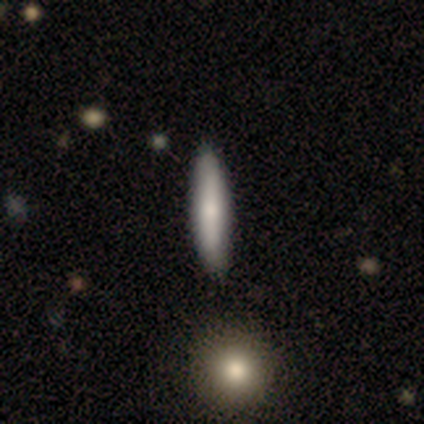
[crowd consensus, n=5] Smooth or featured: smooth — 80% (featured or disk — 20%)
How rounded: cigar-shaped — 100%
Merging: none — 80% (minor disturbance — 20%)